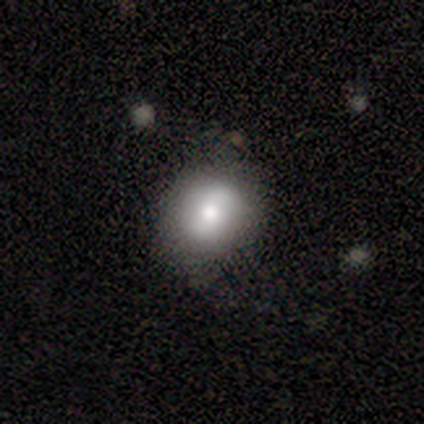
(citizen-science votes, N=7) Q: Smooth or featured?
A: smooth (57%); runner-up: featured or disk (43%)
Q: How rounded?
A: round (50%); tied with: in between (50%)
Q: Merging?
A: none (57%); runner-up: minor disturbance (43%)